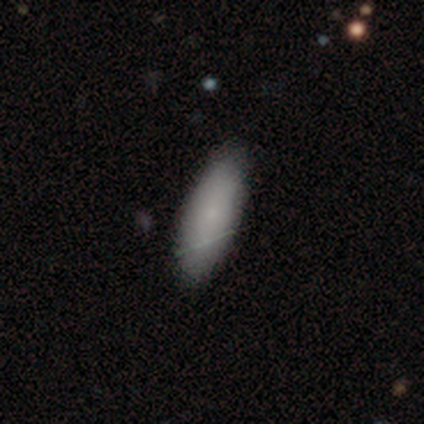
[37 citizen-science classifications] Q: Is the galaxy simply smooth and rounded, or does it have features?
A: smooth — 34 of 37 (92%).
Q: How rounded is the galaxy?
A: in between — 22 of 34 (65%).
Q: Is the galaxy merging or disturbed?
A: none — 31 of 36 (86%).